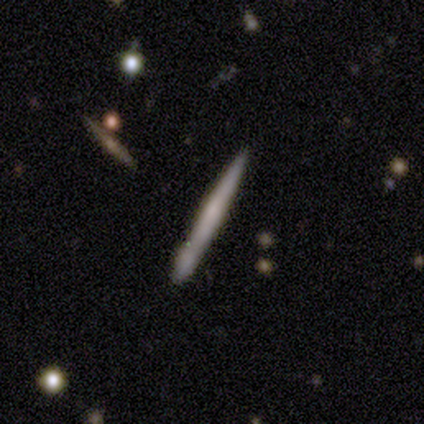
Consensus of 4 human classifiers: Q: Smooth or featured?
A: smooth (75%); runner-up: featured or disk (25%)
Q: How rounded?
A: cigar-shaped (100%)
Q: Merging?
A: none (100%)